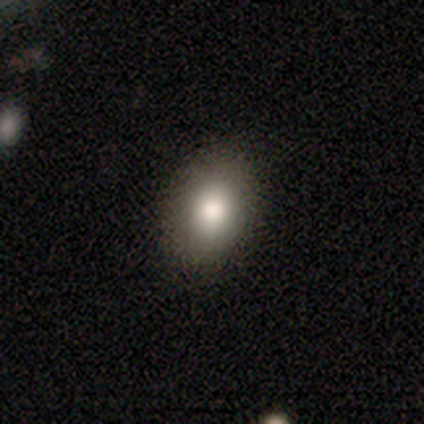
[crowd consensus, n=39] Overall: smooth (74%). How rounded: in between (62%; round 38%). Merging: none (88%).